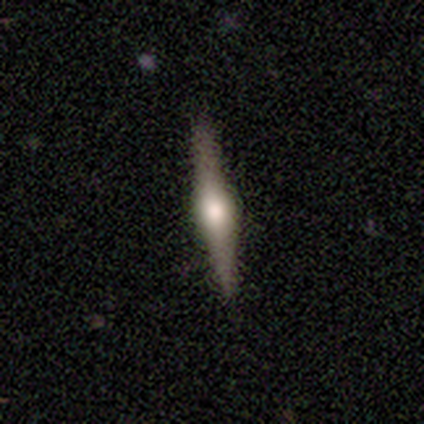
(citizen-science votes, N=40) smooth-or-featured: featured or disk: 72% | smooth: 18% | star or artifact: 10%
  disk-edge-on: yes: 100% | no: 0%
    edge-on-bulge: rounded: 86% | boxy: 14% | none: 0%
  merging: none: 94% | minor disturbance: 6% | major disturbance: 0% | merger: 0%